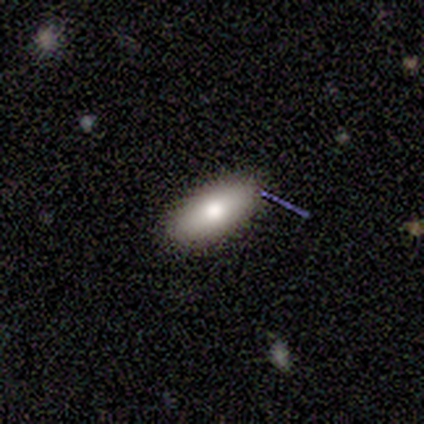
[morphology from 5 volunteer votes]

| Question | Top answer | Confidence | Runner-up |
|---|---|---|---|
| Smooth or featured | smooth | 60% | featured or disk (40%) |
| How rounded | in between | 100% | — |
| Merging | none | 80% | minor disturbance (20%) |